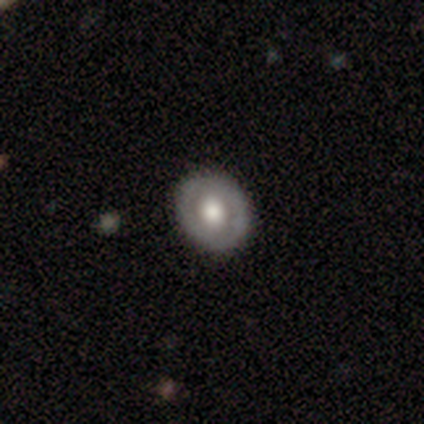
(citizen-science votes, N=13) Volunteers were most divided on "bulge size": moderate: 60%, large: 40%, dominant: 0%, small: 0%, none: 0%. More confident: edge-on disk — no (100%); merging — none (100%); bar — no (90%); spiral arms — no (90%); smooth or featured — featured or disk (77%).